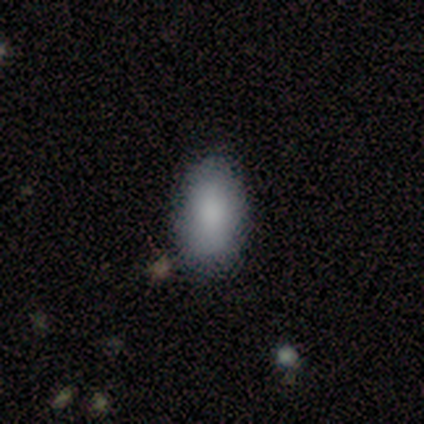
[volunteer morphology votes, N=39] Smooth or featured? 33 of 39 (85%) said smooth. How rounded? 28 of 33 (85%) said in between. Merging? 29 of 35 (83%) said none.